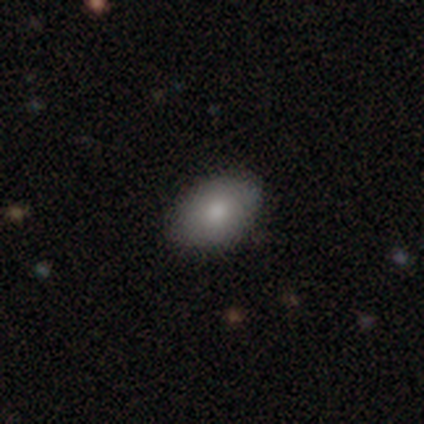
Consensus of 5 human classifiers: smooth_or_featured: smooth (p=1.00)
how_rounded: in between (p=1.00)
merging: none (p=1.00)